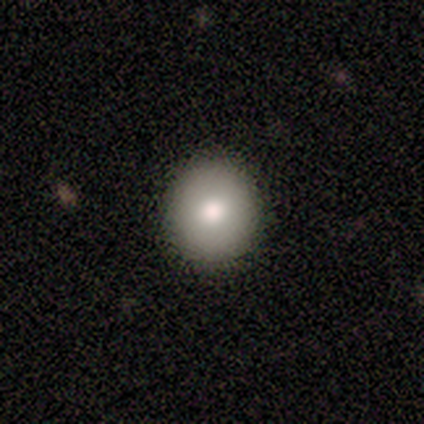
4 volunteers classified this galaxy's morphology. A smooth galaxy with no disk features (75%) that is round (67%). Merging: none (100%).